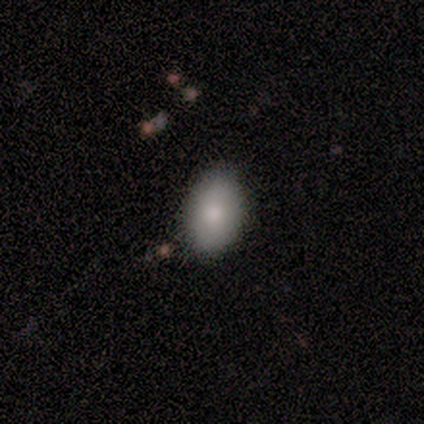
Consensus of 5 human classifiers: Volunteers were most divided on "smooth or featured": smooth: 80%, featured or disk: 20%, star or artifact: 0%. More confident: how rounded — in between (100%); merging — none (100%).